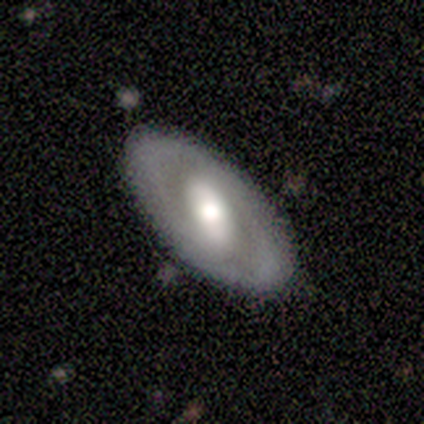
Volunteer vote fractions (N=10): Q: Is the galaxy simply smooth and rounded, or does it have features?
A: featured or disk — 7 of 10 (70%).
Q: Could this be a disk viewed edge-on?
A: no — 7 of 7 (100%).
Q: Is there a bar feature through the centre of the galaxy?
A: no — 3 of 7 (43%).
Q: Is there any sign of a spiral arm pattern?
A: yes — 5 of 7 (71%).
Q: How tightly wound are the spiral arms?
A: medium — 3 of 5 (60%).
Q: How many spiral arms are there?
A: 2 — 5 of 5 (100%).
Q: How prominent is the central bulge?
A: moderate — 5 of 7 (71%).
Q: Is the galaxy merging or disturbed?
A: none — 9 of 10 (90%).